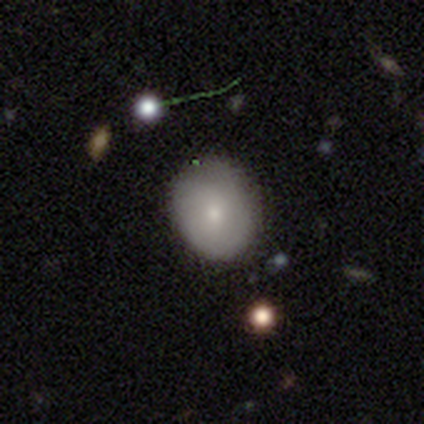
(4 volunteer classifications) Smooth or featured? smooth (100%)
How rounded? round (75%)
Merging? none (75%)